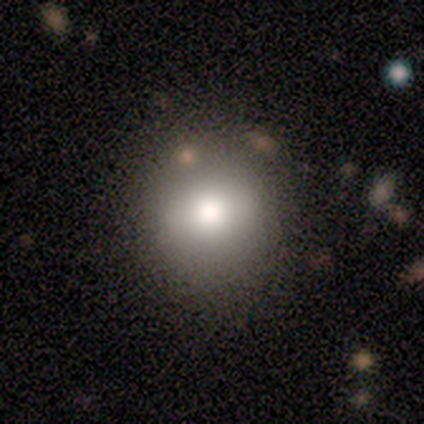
smooth_or_featured: smooth (p=0.56) [alt: star or artifact p=0.33]
how_rounded: round (p=1.00)
merging: none (p=1.00)